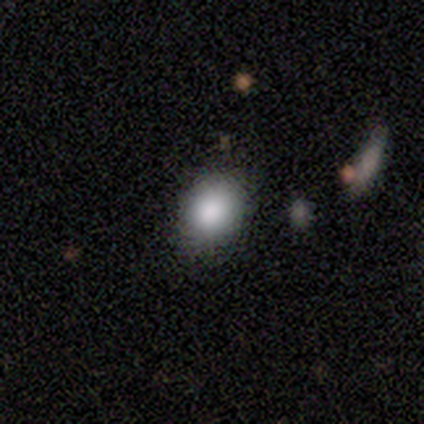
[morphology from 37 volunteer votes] A smooth galaxy with no disk features (86%) that is round (62%).

Vote fractions:
- Smooth or featured? smooth: 86% / star or artifact: 8% / featured or disk: 5%
- How rounded? round: 62% / in between: 38% / cigar-shaped: 0%
- Merging? none: 47% / minor disturbance: 15% / merger: 3% / major disturbance: 0%